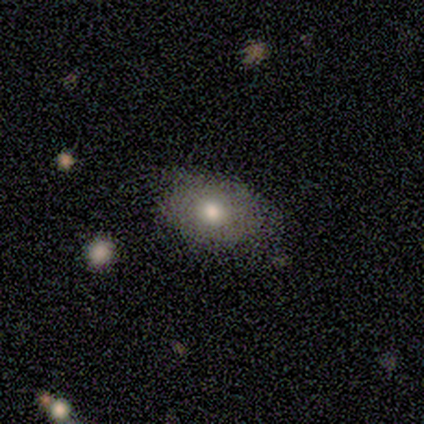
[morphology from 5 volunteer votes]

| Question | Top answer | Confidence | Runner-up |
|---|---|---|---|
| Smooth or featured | smooth | 100% | — |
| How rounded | round | 60% | in between (40%) |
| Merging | none | 80% | minor disturbance (20%) |